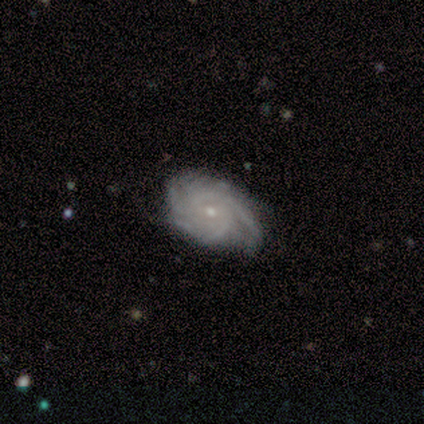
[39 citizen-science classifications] Smooth or featured: featured or disk — 82% (smooth — 15%)
Edge-on disk: no — 100%
Bar: no — 81% (weak — 16%)
Spiral arms: yes — 100%
Spiral winding: tight — 62% (medium — 34%)
Spiral arm count: 3 — 25% (4 — 22%)
Bulge size: small — 72% (moderate — 25%)
Merging: none — 68% (minor disturbance — 26%)